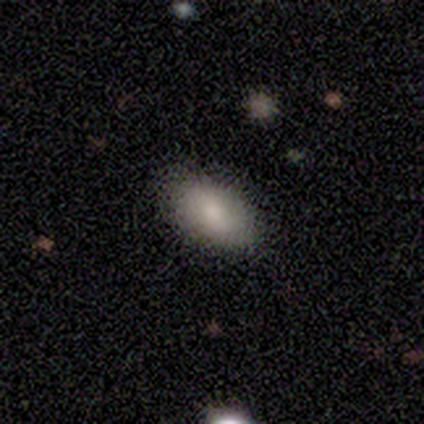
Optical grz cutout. It shows a smooth galaxy with no disk features (82%) that is in between round and cigar-shaped (94%). Merging: none (82%).